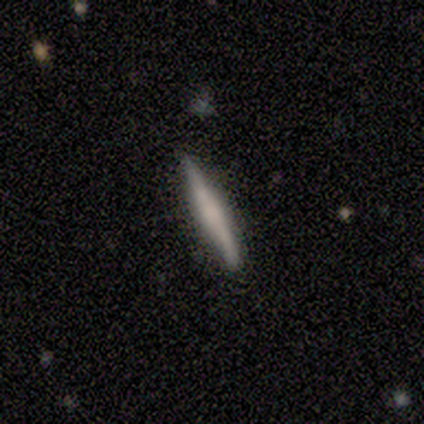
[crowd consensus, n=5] Overall: smooth (60%; featured or disk 40%). How rounded: cigar-shaped (100%). Merging: none (80%).